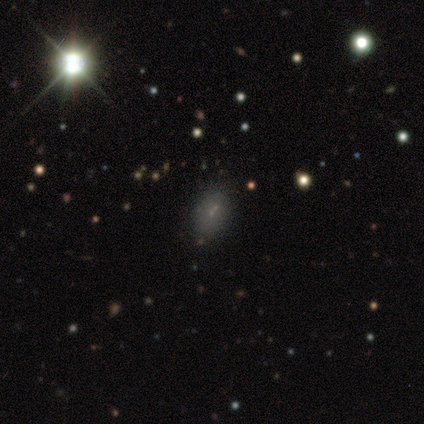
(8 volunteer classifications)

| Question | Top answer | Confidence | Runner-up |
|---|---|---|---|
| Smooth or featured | star or artifact | 75% | smooth (25%) |